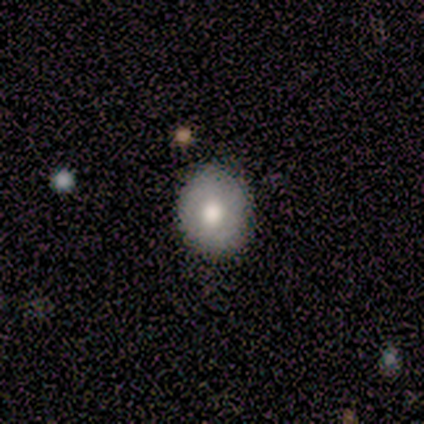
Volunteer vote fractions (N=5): Q: Smooth or featured?
A: smooth (80%); runner-up: featured or disk (20%)
Q: How rounded?
A: round (100%)
Q: Merging?
A: none (80%); runner-up: minor disturbance (20%)